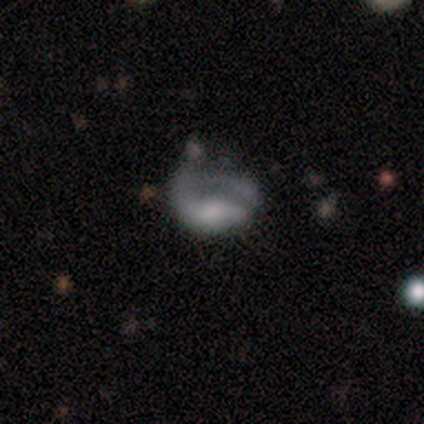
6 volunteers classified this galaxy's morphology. Smooth or featured? featured or disk (67%)
Edge-on disk? no (100%)
Bar? no (75%)
Spiral arms? yes (50%, tied with no)
Spiral winding? tight (100%)
Spiral arm count? 1 (50%, tied with 2)
Bulge size? large (25%, tied with moderate, small and none)
Merging? none (50%, tied with major disturbance)